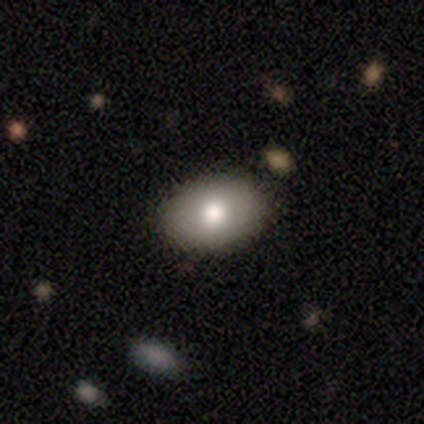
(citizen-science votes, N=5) Q: Smooth or featured?
A: smooth (100%)
Q: How rounded?
A: in between (80%); runner-up: round (20%)
Q: Merging?
A: none (100%)